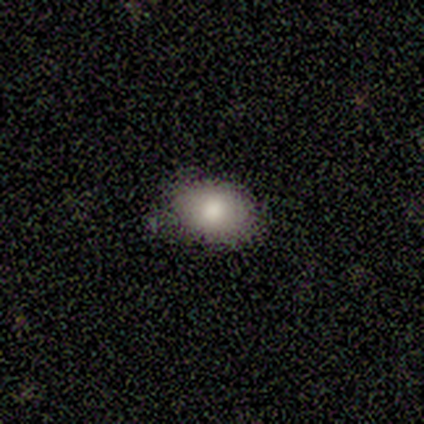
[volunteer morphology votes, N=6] Smooth or featured? 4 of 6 (67%) said smooth. How rounded? 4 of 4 (100%) said in between. Merging? 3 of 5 (60%) said minor disturbance.